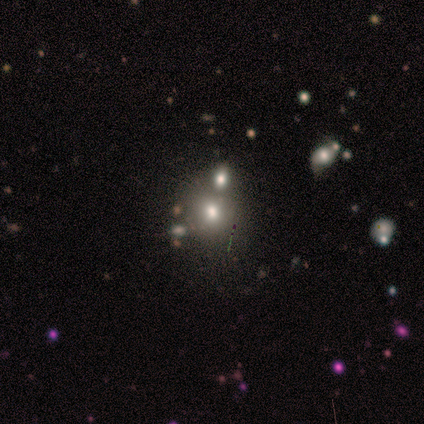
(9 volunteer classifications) Q: Smooth or featured?
A: smooth (44%); tied with: star or artifact (44%)
Q: How rounded?
A: round (100%)
Q: Merging?
A: none (80%); runner-up: merger (20%)